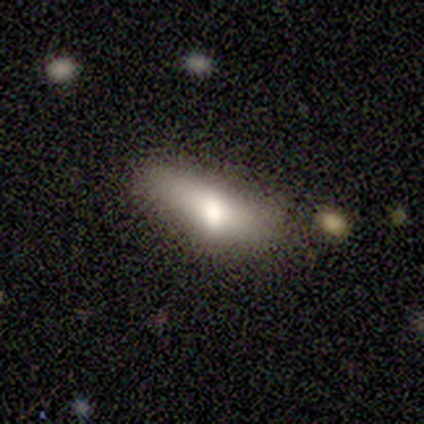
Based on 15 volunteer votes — smooth 60%, featured or disk 40%, star or artifact 0%. Down the decision tree: how rounded — in between (78%); merging — minor disturbance (47%).